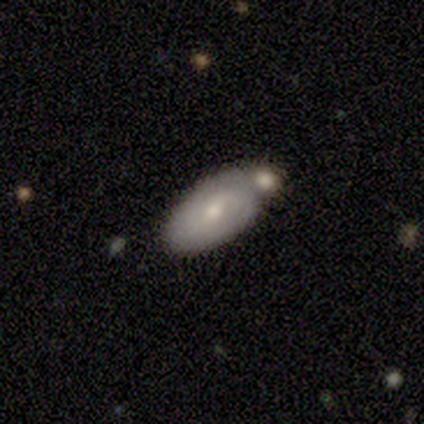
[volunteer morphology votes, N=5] Smooth or featured? smooth (60%)
How rounded? in between (100%)
Merging? minor disturbance (40%, tied with merger)